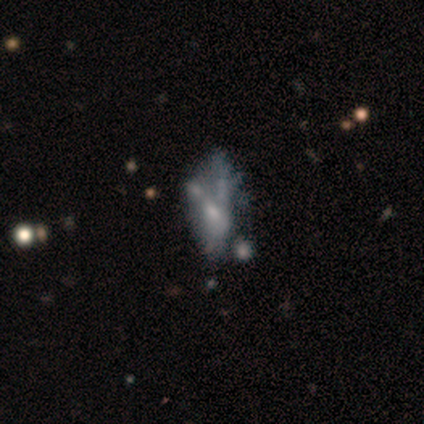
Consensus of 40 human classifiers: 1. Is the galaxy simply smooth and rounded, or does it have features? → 65% featured or disk, 25% smooth, 10% star or artifact.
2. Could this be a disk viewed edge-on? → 92% no, 8% yes.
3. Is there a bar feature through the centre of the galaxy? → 83% no, 12% weak, 4% strong.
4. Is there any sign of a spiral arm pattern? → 100% no, 0% yes.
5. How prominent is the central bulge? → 50% small, 29% none, 21% moderate, 0% dominant, 0% large.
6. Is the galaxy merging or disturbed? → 25% none (tied), 25% major disturbance (tied), 25% merger (tied), 3% minor disturbance.